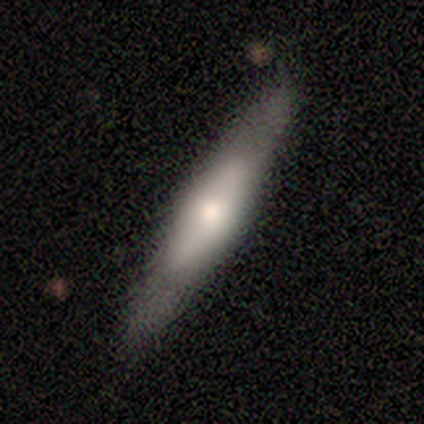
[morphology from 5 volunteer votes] Q: Smooth or featured?
A: smooth (60%); runner-up: featured or disk (40%)
Q: How rounded?
A: cigar-shaped (100%)
Q: Merging?
A: none (100%)